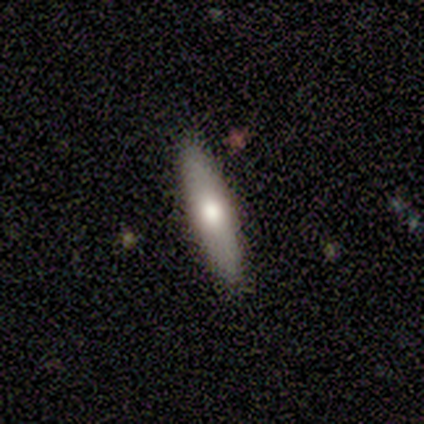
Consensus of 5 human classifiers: Smooth or featured? 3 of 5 (60%) said smooth. How rounded? 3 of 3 (100%) said cigar-shaped. Merging? 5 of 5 (100%) said none.